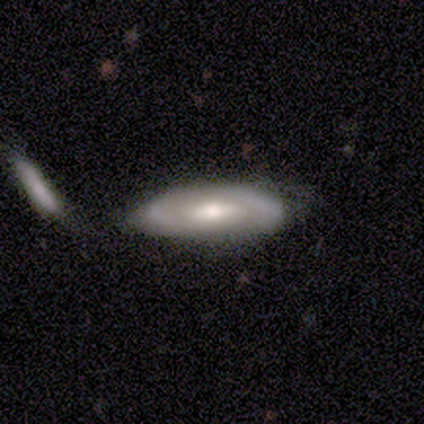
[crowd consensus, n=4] Smooth or featured? 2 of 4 (50%) said smooth. How rounded? 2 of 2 (100%) said in between. Merging? 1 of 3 (33%, tied with major disturbance and merger) said minor disturbance.